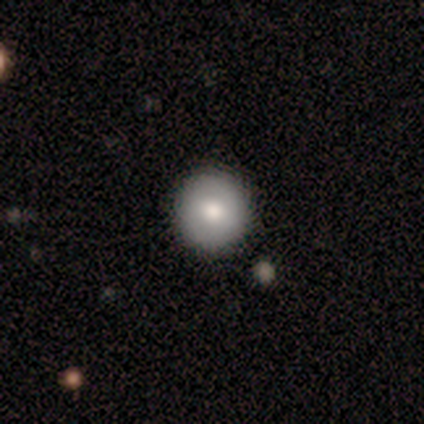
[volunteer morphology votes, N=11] Smooth or featured? smooth (64%)
How rounded? round (86%)
Merging? none (89%)